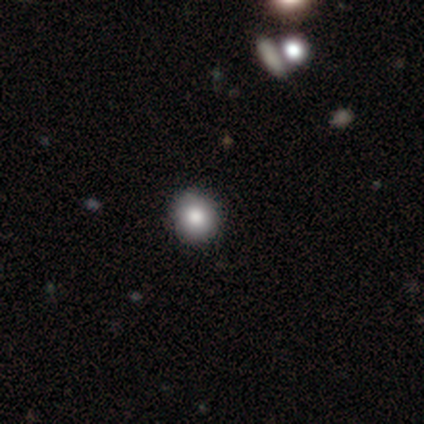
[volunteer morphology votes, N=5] This appears to be a smooth galaxy with no disk features (80%) that is round (100%). Merging: none (100%).